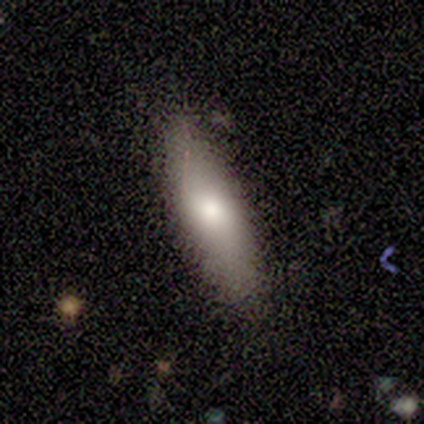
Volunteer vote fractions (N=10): smooth-or-featured: smooth: 90% | featured or disk: 10% | star or artifact: 0%
  how-rounded: cigar-shaped: 56% | in between: 44% | round: 0%
  merging: none: 80% | minor disturbance: 10% | major disturbance: 10% | merger: 0%